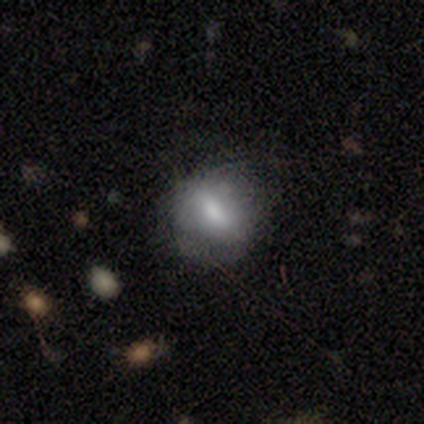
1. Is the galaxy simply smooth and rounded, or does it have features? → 100% smooth, 0% featured or disk, 0% star or artifact.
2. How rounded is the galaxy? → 60% in between, 40% round, 0% cigar-shaped.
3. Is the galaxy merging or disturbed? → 80% none, 20% minor disturbance, 0% major disturbance, 0% merger.